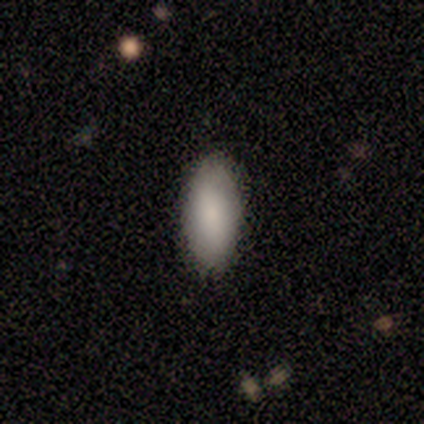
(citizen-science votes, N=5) Volunteers were most divided on "smooth or featured": smooth: 80%, featured or disk: 20%, star or artifact: 0%. More confident: how rounded — in between (100%); merging — none (80%).